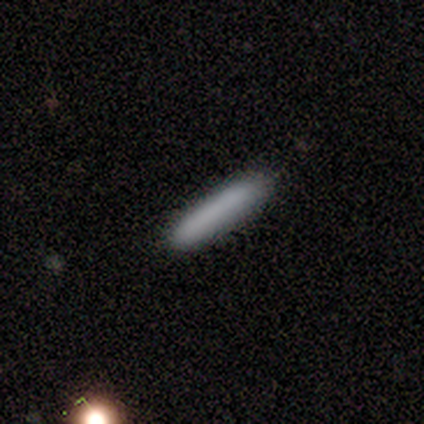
Smooth or featured? smooth (100%)
How rounded? cigar-shaped (100%)
Merging? none (100%)